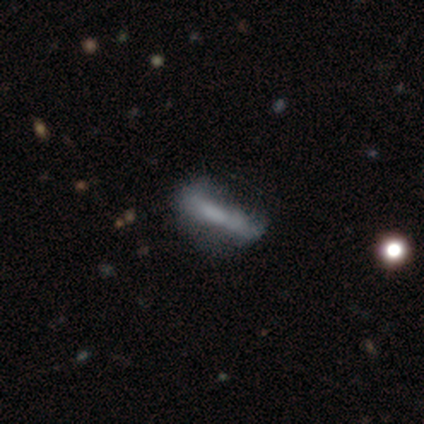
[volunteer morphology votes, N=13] Smooth or featured? 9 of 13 (69%) said smooth. How rounded? 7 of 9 (78%) said cigar-shaped. Merging? 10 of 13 (77%) said none.